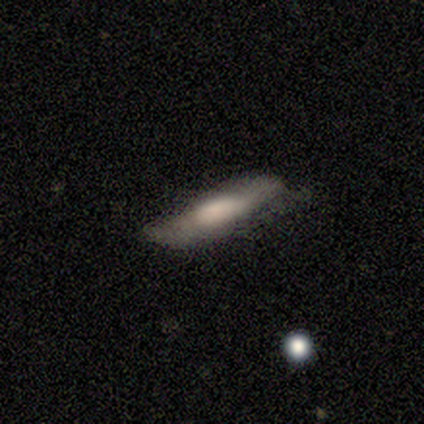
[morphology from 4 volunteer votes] smooth 100%, featured or disk 0%, star or artifact 0%. Down the decision tree: how rounded — in between (50%, tied with cigar-shaped); merging — minor disturbance (75%).